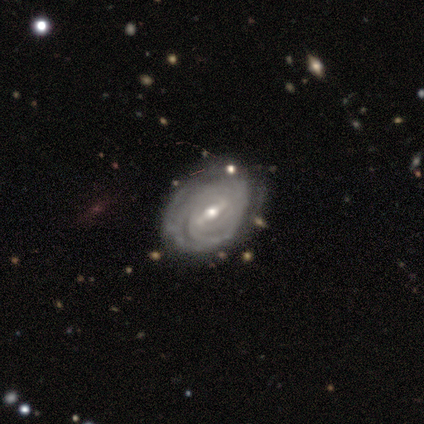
Morphology: type=featured or disk (84%); edge-on=no (95%); bar=weak (48%); spiral arms=yes (94%); winding=tight (68%); arm count=can't tell (49%); bulge=moderate (60%); merging=none (52%).